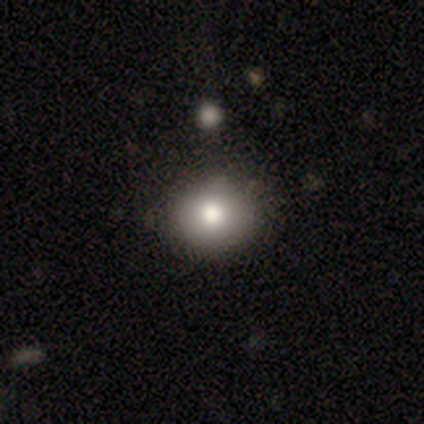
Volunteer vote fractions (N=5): smooth_or_featured: smooth (p=0.80) [alt: featured or disk p=0.20]
how_rounded: round (p=0.75) [alt: in between p=0.25]
merging: none (p=1.00)